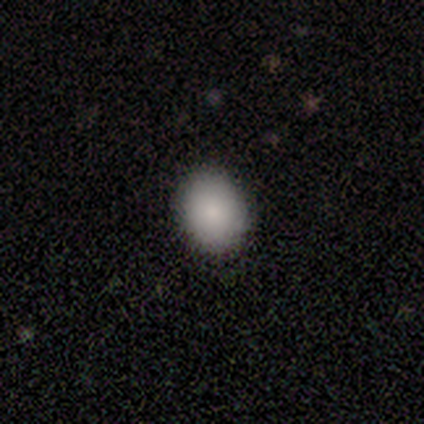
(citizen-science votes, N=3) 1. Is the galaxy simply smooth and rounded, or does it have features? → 67% smooth, 33% featured or disk, 0% star or artifact.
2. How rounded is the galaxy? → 100% in between, 0% round, 0% cigar-shaped.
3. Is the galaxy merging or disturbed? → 100% none, 0% minor disturbance, 0% major disturbance, 0% merger.